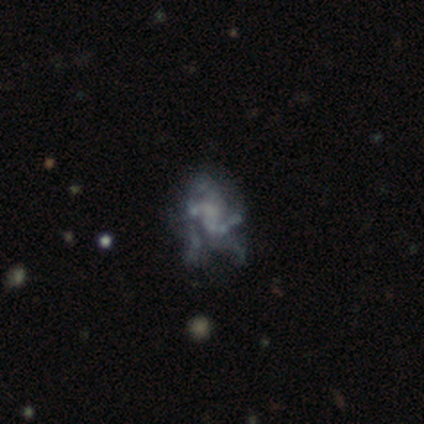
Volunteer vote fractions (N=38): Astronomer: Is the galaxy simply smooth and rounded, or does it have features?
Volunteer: featured or disk — 61%.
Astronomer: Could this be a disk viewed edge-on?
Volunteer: no — 100%.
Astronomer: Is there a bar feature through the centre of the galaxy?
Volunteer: no — 74%.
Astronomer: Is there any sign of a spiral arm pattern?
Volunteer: no — 65%.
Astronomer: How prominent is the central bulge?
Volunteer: none — 57%.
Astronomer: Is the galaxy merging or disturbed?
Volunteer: major disturbance — 53%.